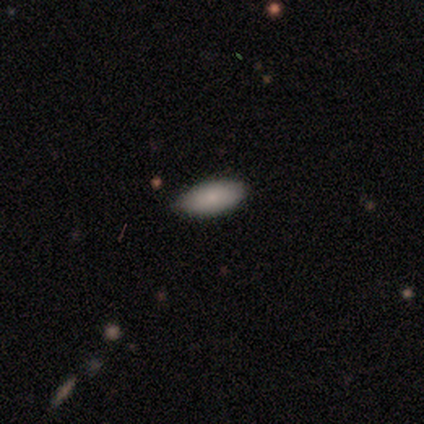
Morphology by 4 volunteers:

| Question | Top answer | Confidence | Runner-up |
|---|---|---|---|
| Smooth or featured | smooth | 100% | — |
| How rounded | in between | 75% | cigar-shaped (25%) |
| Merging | none | 50% | tied: minor disturbance (50%) |